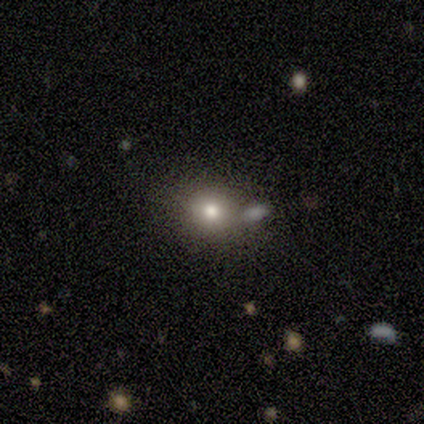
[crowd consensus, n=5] smooth-or-featured: smooth: 60% | star or artifact: 40% | featured or disk: 0%
  how-rounded: round: 67% | in between: 33% | cigar-shaped: 0%
  merging: none: 100% | minor disturbance: 0% | major disturbance: 0% | merger: 0%